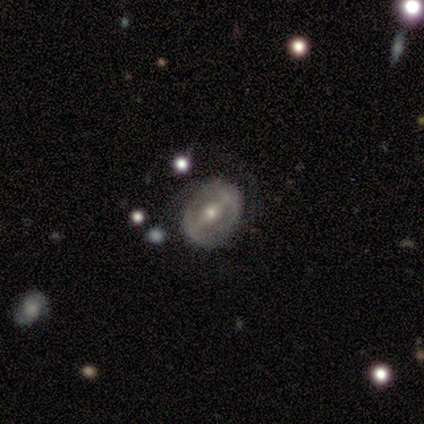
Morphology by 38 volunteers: Q: Smooth or featured?
A: featured or disk (84%); runner-up: smooth (13%)
Q: Edge-on disk?
A: no (94%); runner-up: yes (6%)
Q: Bar?
A: strong (50%); runner-up: weak (43%)
Q: Spiral arms?
A: no (53%); runner-up: yes (47%)
Q: Bulge size?
A: small (63%); runner-up: moderate (37%)
Q: Merging?
A: none (73%); runner-up: minor disturbance (19%)